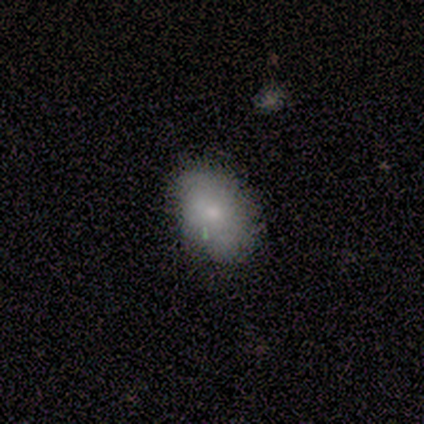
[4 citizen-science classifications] smooth_or_featured: smooth (p=1.00)
how_rounded: in between (p=1.00)
merging: none (p=1.00)